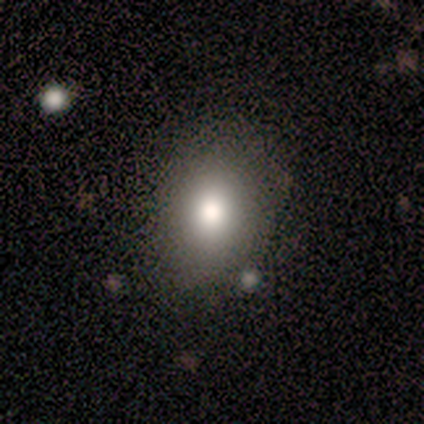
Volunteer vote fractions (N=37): Volunteers were most divided on "how rounded": in between: 66%, round: 34%, cigar-shaped: 0%. More confident: merging — none (88%); smooth or featured — smooth (86%).